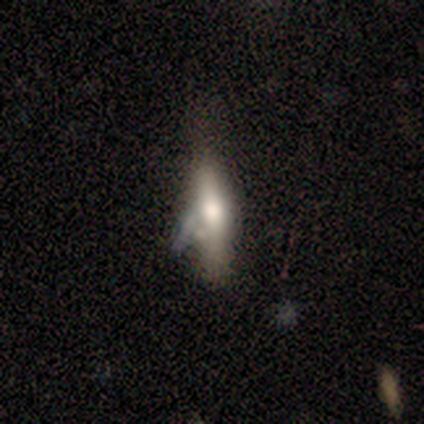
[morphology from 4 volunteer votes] Volunteers were most divided on "how rounded" (2-way tie): in between: 50%, cigar-shaped: 50%, round: 0%. More confident: merging — major disturbance (67%); smooth or featured — smooth (50%).